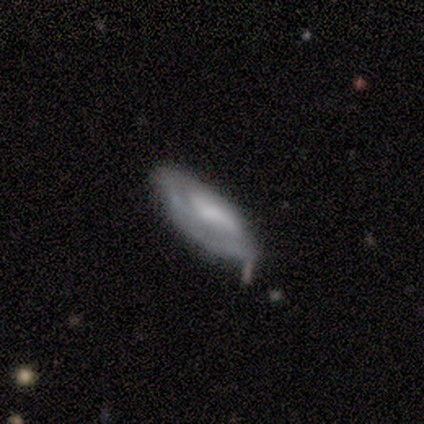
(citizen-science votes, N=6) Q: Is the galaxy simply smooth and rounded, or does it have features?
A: smooth — 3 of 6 (50%, tied with featured or disk).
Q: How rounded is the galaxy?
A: in between — 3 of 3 (100%).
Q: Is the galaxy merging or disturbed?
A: none — 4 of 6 (67%).